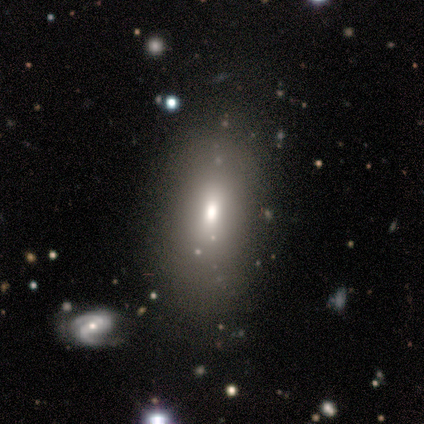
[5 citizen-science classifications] This appears to be a smooth galaxy with no disk features (80%) that is in between round and cigar-shaped (75%). Merging: none (50%).